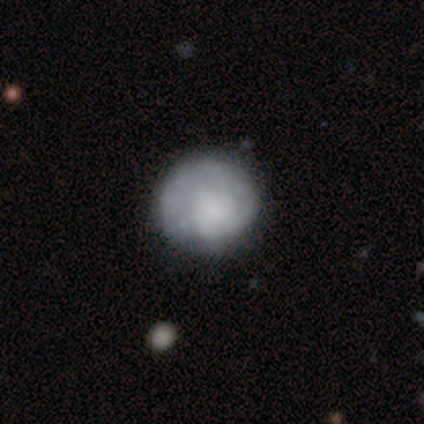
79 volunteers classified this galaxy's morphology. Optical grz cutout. It shows a smooth galaxy with no disk features (52%) that is round (98%). Merging: none (38%).